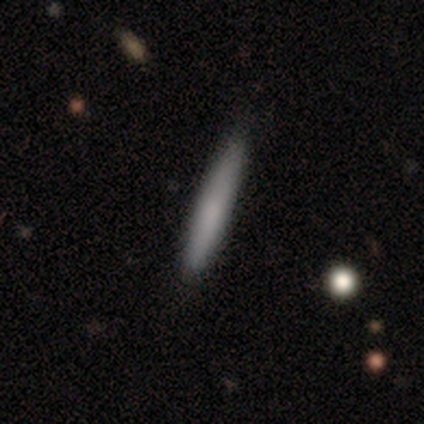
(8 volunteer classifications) Smooth or featured? 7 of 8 (88%) said smooth. How rounded? 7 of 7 (100%) said cigar-shaped. Merging? 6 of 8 (75%) said none.